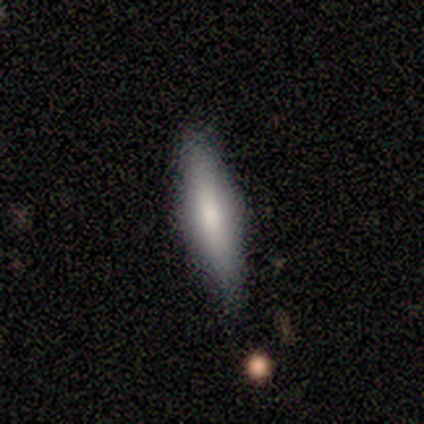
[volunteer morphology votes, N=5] type=smooth (60%); roundness=cigar-shaped (67%); merging=none (80%).